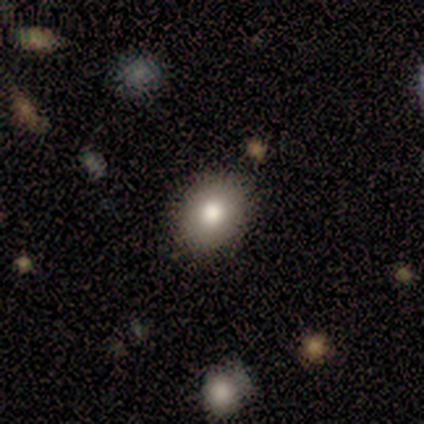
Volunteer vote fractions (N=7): smooth_or_featured: smooth (p=0.71) [alt: featured or disk p=0.29]
how_rounded: round (p=0.60) [alt: in between p=0.40]
merging: none (p=0.86) [alt: minor disturbance p=0.14]